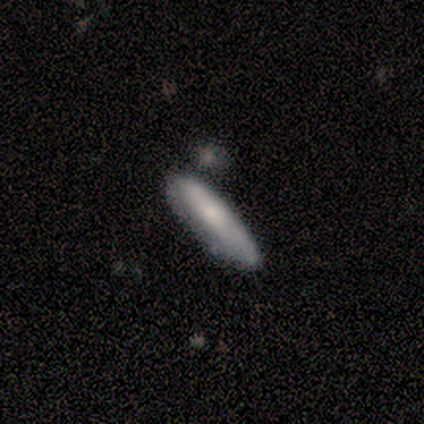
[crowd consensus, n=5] Smooth or featured? 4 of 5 (80%) said smooth. How rounded? 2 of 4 (50%, tied with cigar-shaped) said in between. Merging? 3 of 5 (60%) said minor disturbance.